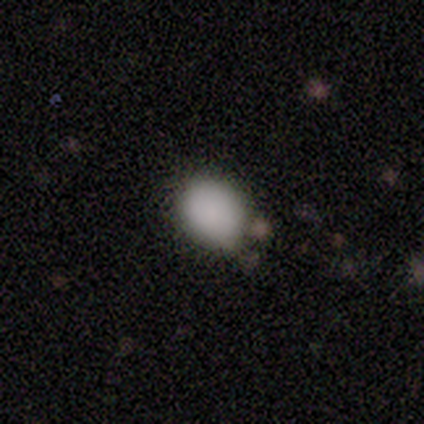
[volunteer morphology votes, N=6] smooth_or_featured: smooth (p=1.00)
how_rounded: in between (p=0.67) [alt: round p=0.33]
merging: minor disturbance (p=0.67) [alt: none p=0.33]